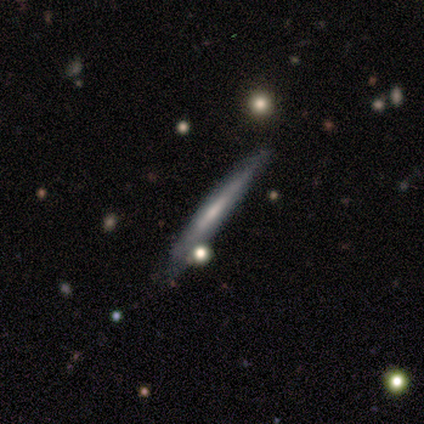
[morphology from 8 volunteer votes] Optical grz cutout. It shows a featured or disk galaxy (62%) viewed edge-on (80%) with no central bulge (75%). Merging: none (57%).